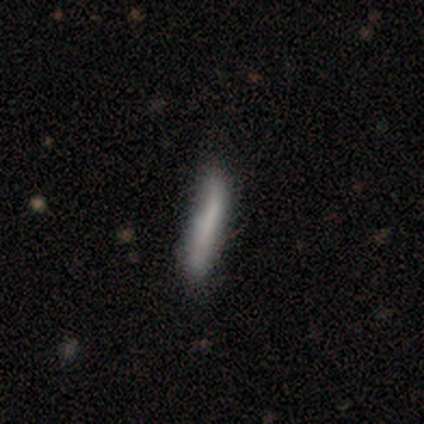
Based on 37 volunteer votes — Q: Smooth or featured?
A: smooth (65%); runner-up: featured or disk (27%)
Q: How rounded?
A: cigar-shaped (96%); runner-up: in between (4%)
Q: Merging?
A: none (56%); runner-up: minor disturbance (18%)